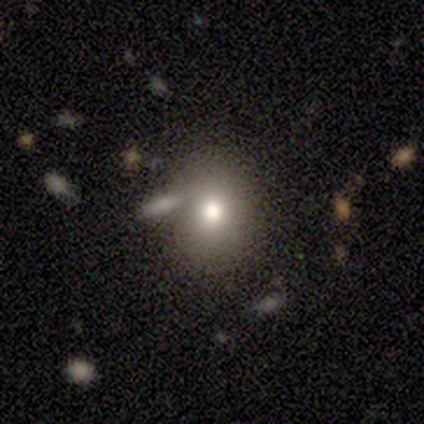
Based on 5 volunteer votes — A smooth galaxy with no disk features (60%) that is round (67%). Merging: none (67%).